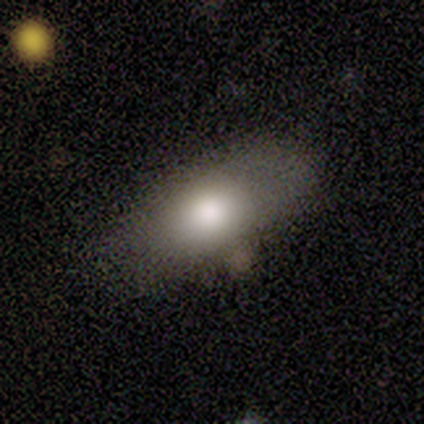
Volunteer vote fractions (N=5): Consensus on every question: smooth or featured — smooth (100%); how rounded — in between (100%); merging — none (100%).